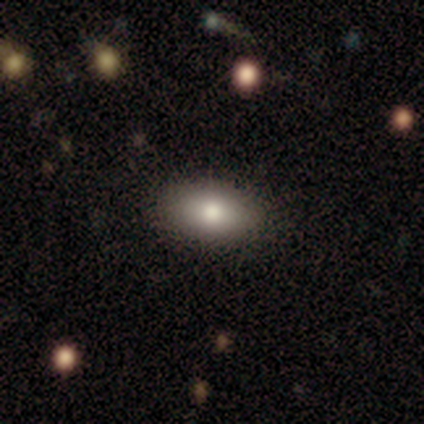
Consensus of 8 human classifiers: Overall: smooth (88%). How rounded: in between (86%). Merging: none (100%).